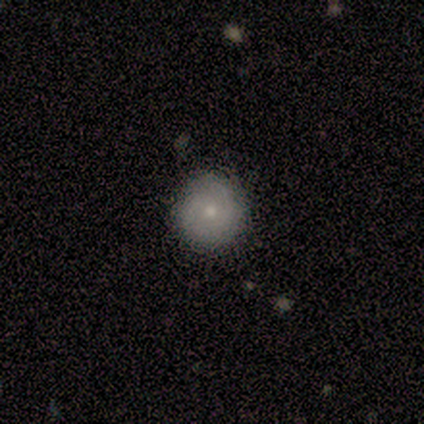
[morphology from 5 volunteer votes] A smooth galaxy with no disk features (40%, tied with featured or disk) that is round (100%).

Vote fractions:
- Smooth or featured? smooth: 40% (tied) / featured or disk: 40% (tied) / star or artifact: 20%
- How rounded? round: 100% / in between: 0% / cigar-shaped: 0%
- Merging? none: 100% / minor disturbance: 0% / major disturbance: 0% / merger: 0%